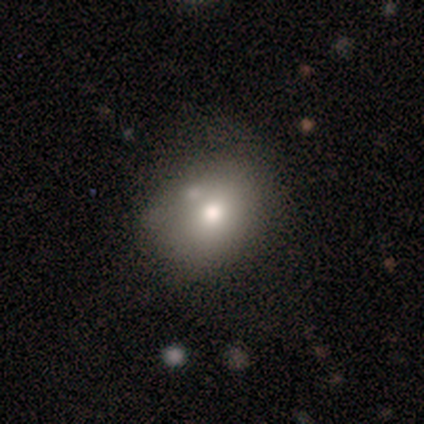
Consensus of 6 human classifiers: Smooth or featured: smooth — 100%
How rounded: round — 67% (in between — 33%)
Merging: merger — 50% (none — 33%)